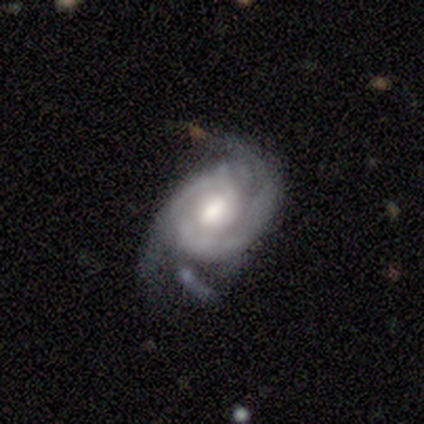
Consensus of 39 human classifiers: smooth-or-featured: featured or disk: 90% | smooth: 5% | star or artifact: 5%
  disk-edge-on: no: 100% | yes: 0%
    bar: weak: 49% | no: 40% | strong: 11%
    has-spiral-arms: yes: 91% | no: 9%
      spiral-winding: medium: 50% | tight: 41% | loose: 9%
      spiral-arm-count: 2: 50% | can't tell: 25% | 3: 22% | 4: 3% | 1: 0% | more than 4: 0%
    bulge-size: moderate: 69% | large: 17% | small: 11% | dominant: 3% | none: 0%
  merging: none: 54% | minor disturbance: 27% | major disturbance: 16% | merger: 3%